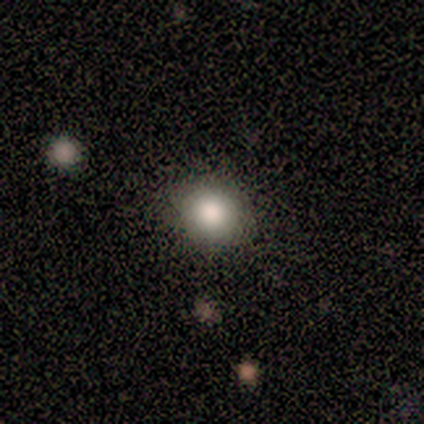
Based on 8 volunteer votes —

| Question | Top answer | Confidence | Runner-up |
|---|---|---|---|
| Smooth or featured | smooth | 75% | featured or disk (12%) |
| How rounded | round | 100% | — |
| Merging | none | 86% | minor disturbance (14%) |